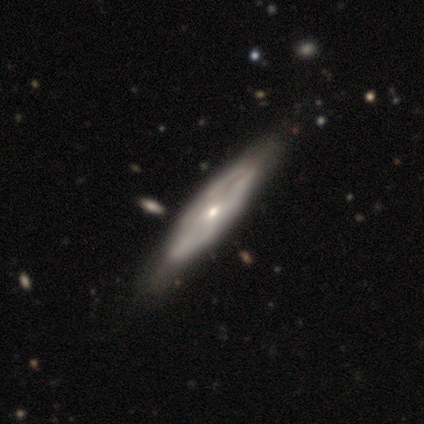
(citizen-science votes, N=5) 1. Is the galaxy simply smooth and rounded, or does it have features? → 100% featured or disk, 0% smooth, 0% star or artifact.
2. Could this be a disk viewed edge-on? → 60% yes, 40% no.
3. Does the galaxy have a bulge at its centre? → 100% rounded, 0% boxy, 0% none.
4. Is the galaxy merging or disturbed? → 60% none, 20% major disturbance, 20% merger, 0% minor disturbance.